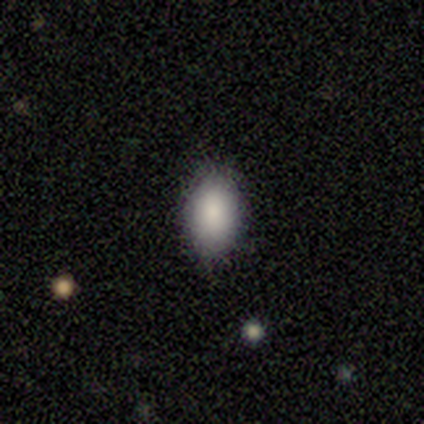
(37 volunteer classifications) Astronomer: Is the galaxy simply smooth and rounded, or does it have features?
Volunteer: smooth — 84%.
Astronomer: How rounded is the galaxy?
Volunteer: in between — 94%.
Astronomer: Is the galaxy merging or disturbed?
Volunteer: none — 85%.